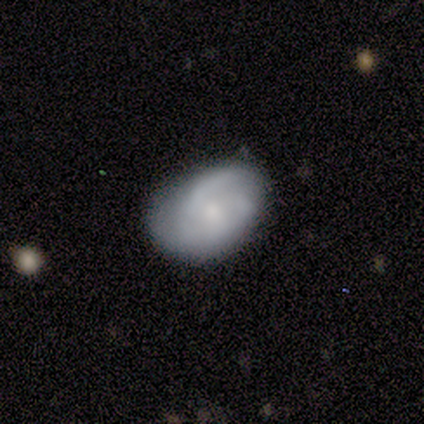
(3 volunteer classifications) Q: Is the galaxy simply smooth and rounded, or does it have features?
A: featured or disk — 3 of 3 (100%).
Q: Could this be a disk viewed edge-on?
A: no — 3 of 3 (100%).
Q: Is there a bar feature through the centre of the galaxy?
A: weak — 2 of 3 (67%).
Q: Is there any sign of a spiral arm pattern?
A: yes — 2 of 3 (67%).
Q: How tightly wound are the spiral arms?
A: medium — 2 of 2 (100%).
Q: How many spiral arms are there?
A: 2 — 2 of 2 (100%).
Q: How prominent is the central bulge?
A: moderate — 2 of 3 (67%).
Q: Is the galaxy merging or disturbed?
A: none — 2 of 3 (67%).